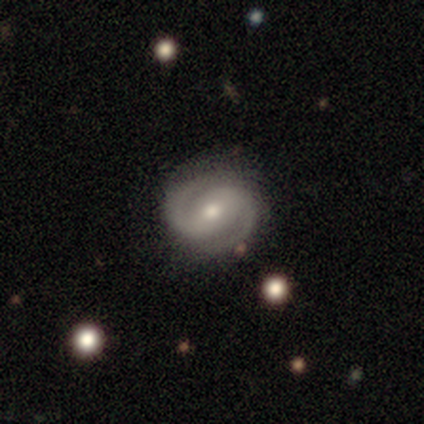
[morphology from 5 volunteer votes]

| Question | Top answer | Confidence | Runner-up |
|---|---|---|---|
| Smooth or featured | featured or disk | 100% | — |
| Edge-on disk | no | 100% | — |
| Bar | weak | 60% | strong (20%) |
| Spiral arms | yes | 100% | — |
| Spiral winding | medium | 80% | tight (20%) |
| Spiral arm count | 2 | 100% | — |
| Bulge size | moderate | 100% | — |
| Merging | none | 80% | minor disturbance (20%) |